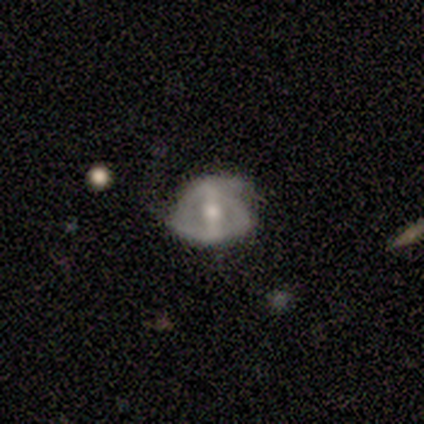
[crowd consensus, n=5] A featured or disk galaxy (60%) with no bar (67%), no spiral arms (67%) and a moderate central bulge (67%).

Vote fractions:
- Smooth or featured? featured or disk: 60% / smooth: 20% / star or artifact: 20%
- Edge-on disk? no: 100% / yes: 0%
- Bar? no: 67% / weak: 33% / strong: 0%
- Spiral arms? no: 67% / yes: 33%
- Bulge size? moderate: 67% / small: 33% / dominant: 0% / large: 0% / none: 0%
- Merging? none: 50% (tied) / minor disturbance: 50% (tied) / major disturbance: 0% / merger: 0%